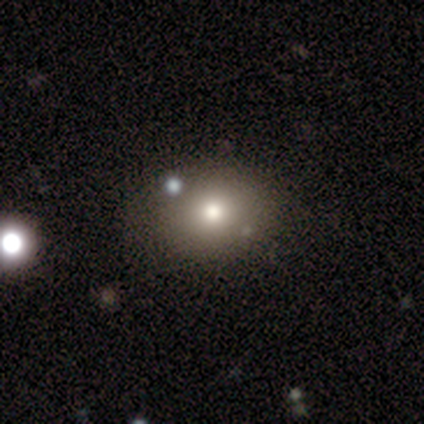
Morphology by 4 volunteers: Smooth or featured: smooth — 50% (tied with featured or disk — 50%)
How rounded: round — 100%
Merging: none — 75% (minor disturbance — 25%)